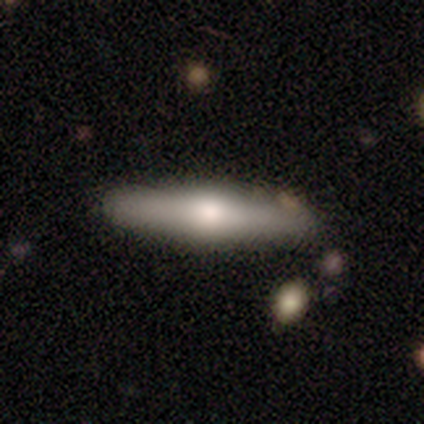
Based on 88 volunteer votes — A featured or disk galaxy (53%) viewed edge-on (89%) with a rounded central bulge (90%).

Vote fractions:
- Smooth or featured? featured or disk: 53% / smooth: 40% / star or artifact: 7%
- Edge-on disk? yes: 89% / no: 11%
- Edge-on bulge? rounded: 90% / boxy: 10% / none: 0%
- Merging? none: 76% / minor disturbance: 15% / major disturbance: 5% / merger: 5%